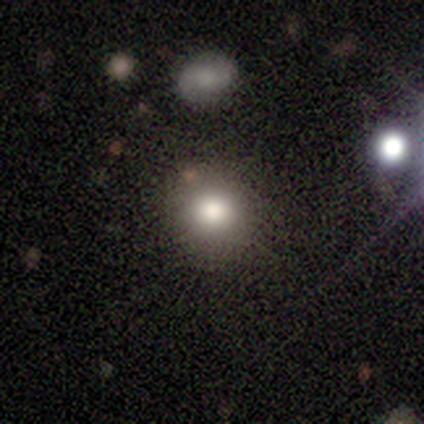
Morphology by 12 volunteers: This is clearly a smooth galaxy (83%). How rounded: clearly round (100%). Merging: clearly none (92%).